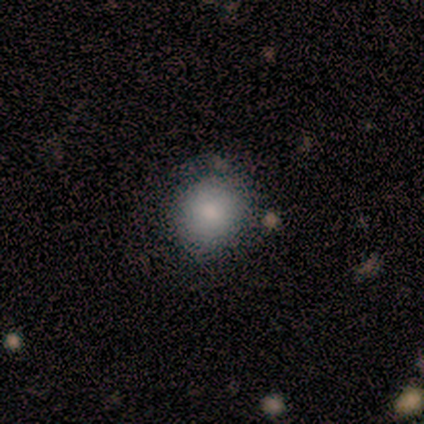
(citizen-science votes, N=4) Volunteers were most divided on "how rounded": round: 75%, in between: 25%, cigar-shaped: 0%. More confident: smooth or featured — smooth (100%); merging — none (75%).